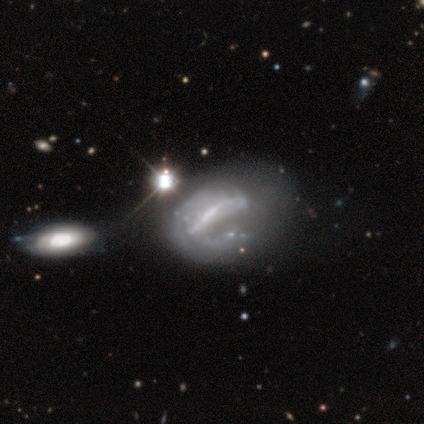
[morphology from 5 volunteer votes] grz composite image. It shows a featured or disk galaxy (100%) with a strong bar (60%), no spiral arms (60%) and a moderate central bulge (60%). Merging: none (40%, tied with major disturbance).